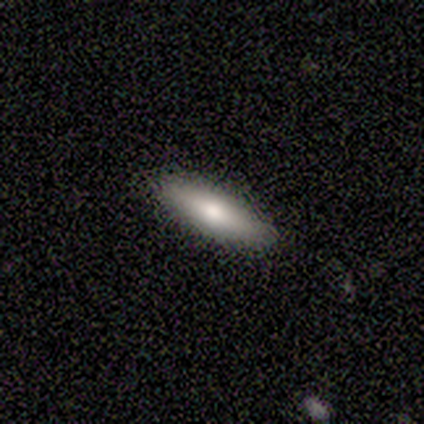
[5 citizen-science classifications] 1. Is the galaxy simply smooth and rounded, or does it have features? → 60% smooth, 40% featured or disk, 0% star or artifact.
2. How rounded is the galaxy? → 67% in between, 33% cigar-shaped, 0% round.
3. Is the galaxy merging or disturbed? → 60% none, 40% minor disturbance, 0% major disturbance, 0% merger.